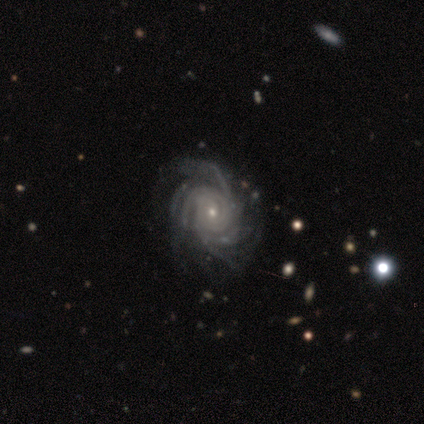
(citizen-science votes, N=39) smooth-or-featured: featured or disk: 97% | star or artifact: 3% | smooth: 0%
  disk-edge-on: no: 97% | yes: 3%
    bar: no: 78% | weak: 19% | strong: 3%
    has-spiral-arms: yes: 100% | no: 0%
      spiral-winding: tight: 81% | medium: 16% | loose: 3%
      spiral-arm-count: more than 4: 46% | 4: 22% | can't tell: 22% | 3: 8% | 2: 3% | 1: 0%
    bulge-size: small: 84% | moderate: 14% | large: 3% | dominant: 0% | none: 0%
  merging: none: 68% | minor disturbance: 29% | major disturbance: 3% | merger: 0%